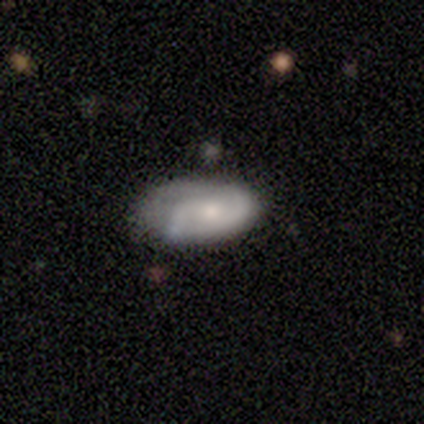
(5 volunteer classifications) This appears to be a smooth galaxy with no disk features (80%) that is in between round and cigar-shaped (100%). Merging: none (60%).